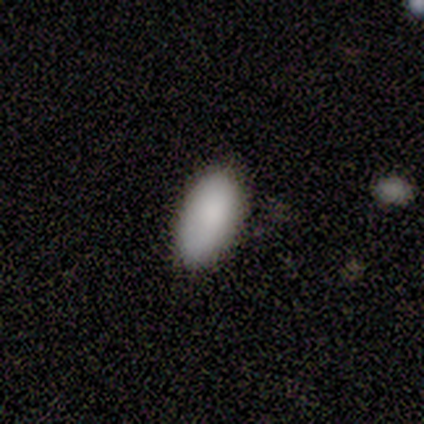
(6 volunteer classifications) A smooth galaxy with no disk features (83%) that is in between round and cigar-shaped (100%).

Vote fractions:
- Smooth or featured? smooth: 83% / featured or disk: 17% / star or artifact: 0%
- How rounded? in between: 100% / round: 0% / cigar-shaped: 0%
- Merging? none: 67% / minor disturbance: 33% / major disturbance: 0% / merger: 0%